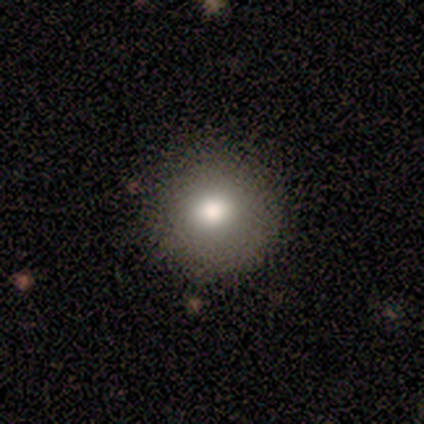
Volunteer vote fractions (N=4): Morphology: type=smooth (100%); roundness=round (100%); merging=none (75%).